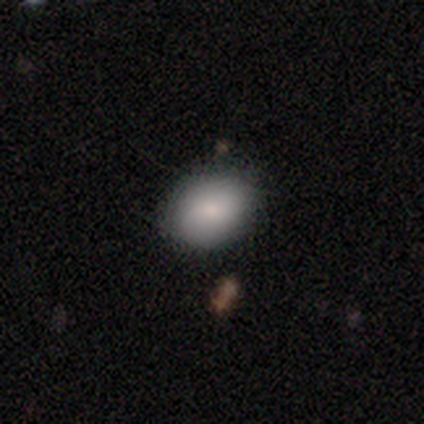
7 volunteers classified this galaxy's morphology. smooth_or_featured: smooth (p=0.43) [tied with: star or artifact p=0.43]
how_rounded: round (p=0.67) [alt: in between p=0.33]
merging: none (p=0.75) [alt: minor disturbance p=0.25]